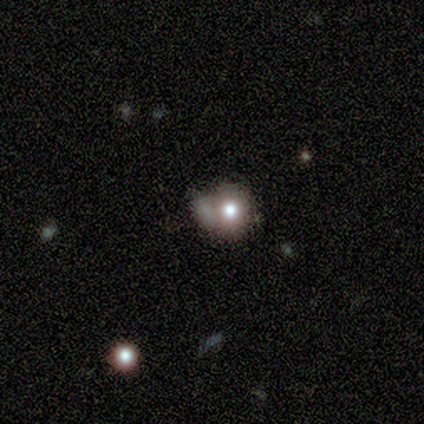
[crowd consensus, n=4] A smooth galaxy with no disk features (50%, tied with featured or disk) that is round (50%, tied with in between). Merging: none (75%).